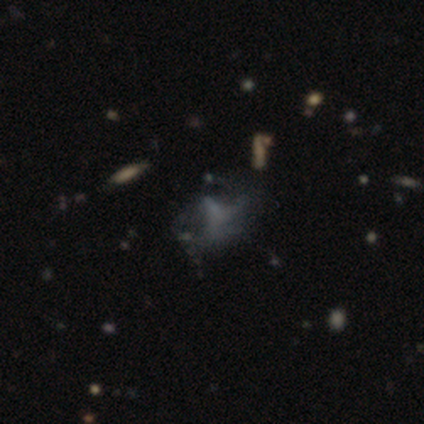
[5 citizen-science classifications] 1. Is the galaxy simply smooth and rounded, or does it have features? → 60% smooth, 20% featured or disk, 20% star or artifact.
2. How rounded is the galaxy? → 67% in between, 33% cigar-shaped, 0% round.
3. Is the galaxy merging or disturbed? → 75% minor disturbance, 25% major disturbance, 0% none, 0% merger.